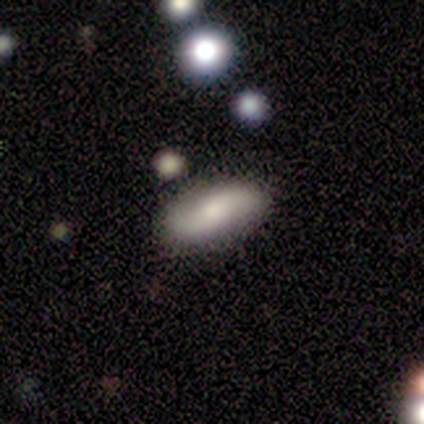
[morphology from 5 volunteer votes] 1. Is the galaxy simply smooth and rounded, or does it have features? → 40% smooth (tied), 40% featured or disk (tied), 20% star or artifact.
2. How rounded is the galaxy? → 100% in between, 0% round, 0% cigar-shaped.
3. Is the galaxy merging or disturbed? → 75% none, 25% minor disturbance, 0% major disturbance, 0% merger.